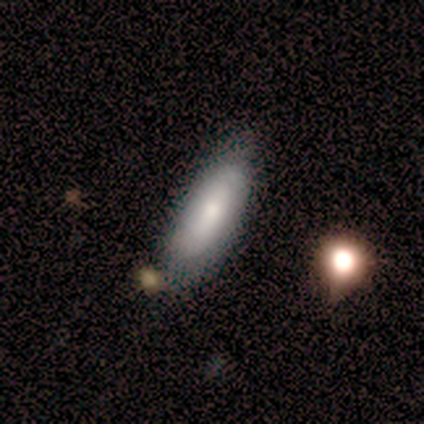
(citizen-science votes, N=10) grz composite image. It shows a smooth galaxy with no disk features (80%) that is in between round and cigar-shaped (75%). Merging: none (100%).